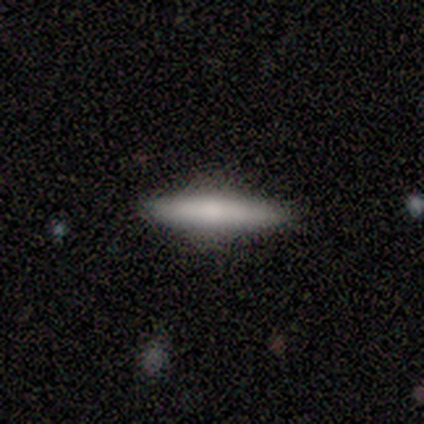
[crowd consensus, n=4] Smooth or featured? 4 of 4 (100%) said smooth. How rounded? 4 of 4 (100%) said cigar-shaped. Merging? 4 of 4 (100%) said none.